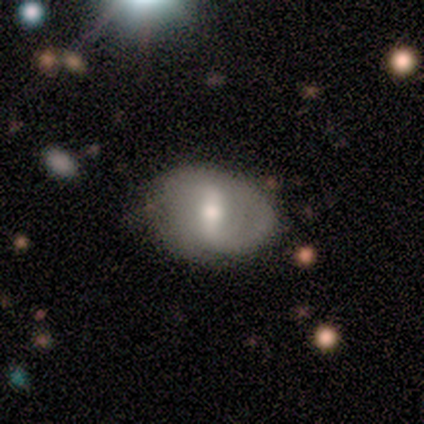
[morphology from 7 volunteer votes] This is clearly a featured or disk galaxy (86%). It is clearly not viewed edge-on (100%). Bar: possibly strong (50%, tied with weak). Spiral arm pattern: clearly yes (83%). Spiral arm count: likely 2 (60%). Spiral winding: clearly loose (80%). Central bulge: likely moderate (67%). Merging: clearly none (83%).